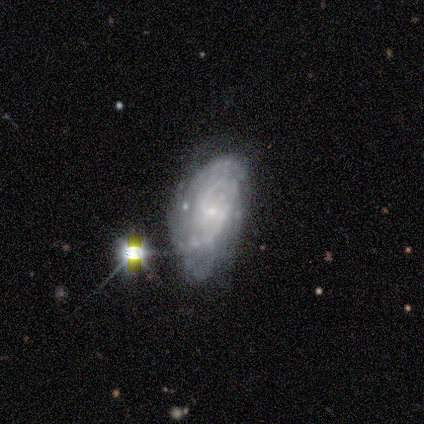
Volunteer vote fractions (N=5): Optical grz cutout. It shows a featured or disk galaxy (100%) with no bar (60%), tight (50%) spiral arms (80%) and a small central bulge (80%). Merging: major disturbance (40%).